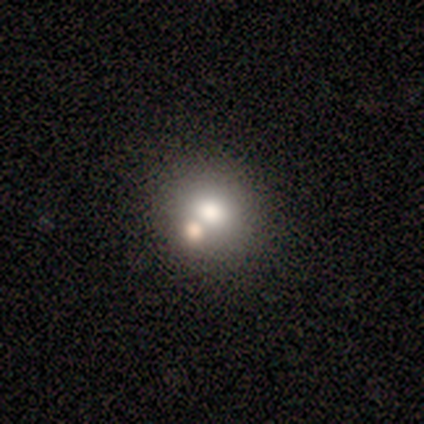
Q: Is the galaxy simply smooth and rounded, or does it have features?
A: smooth — 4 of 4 (100%).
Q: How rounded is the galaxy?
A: round — 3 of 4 (75%).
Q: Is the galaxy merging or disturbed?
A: none — 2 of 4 (50%).